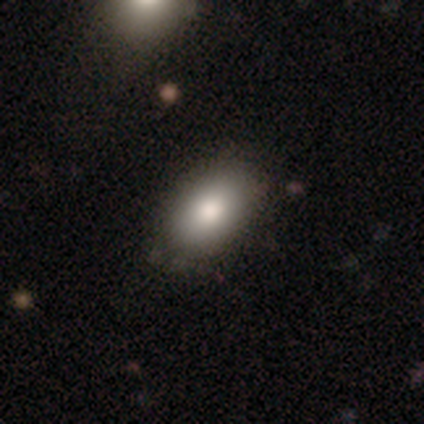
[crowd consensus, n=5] Overall: smooth (60%; featured or disk 20%). How rounded: in between (100%). Merging: none (100%).